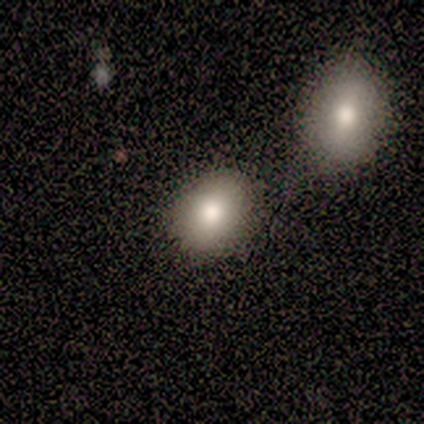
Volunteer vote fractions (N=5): Smooth or featured?
  - smooth: 60% *
  - featured or disk: 40%
  - star or artifact: 0%
How rounded?
  - in between: 67% *
  - round: 33%
  - cigar-shaped: 0%
Merging?
  - none: 40% *
  - minor disturbance: 20%
  - major disturbance: 20%
  - merger: 20%